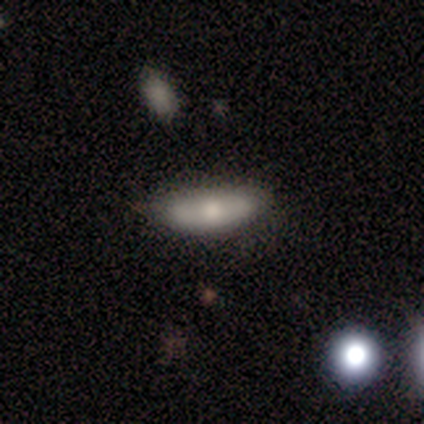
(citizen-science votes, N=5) A smooth galaxy with no disk features (100%) that is in between round and cigar-shaped (80%). Merging: none (60%).